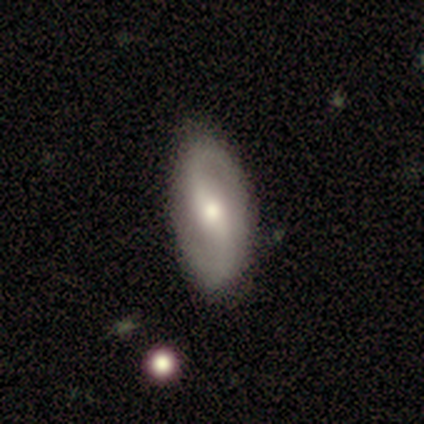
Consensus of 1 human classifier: Q: Smooth or featured?
A: featured or disk (100%)
Q: Edge-on disk?
A: no (100%)
Q: Bar?
A: weak (100%)
Q: Spiral arms?
A: yes (100%)
Q: Spiral winding?
A: medium (100%)
Q: Spiral arm count?
A: 2 (100%)
Q: Bulge size?
A: moderate (100%)
Q: Merging?
A: none (100%)